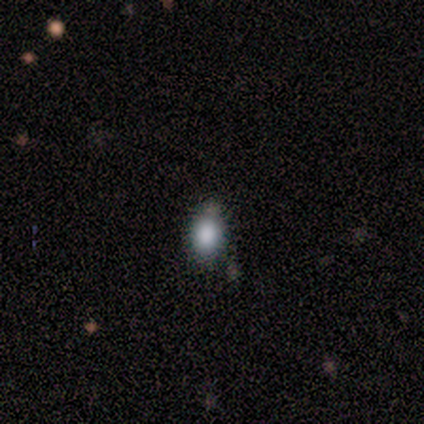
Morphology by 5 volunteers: Smooth or featured? smooth (60%)
How rounded? in between (67%)
Merging? none (67%)